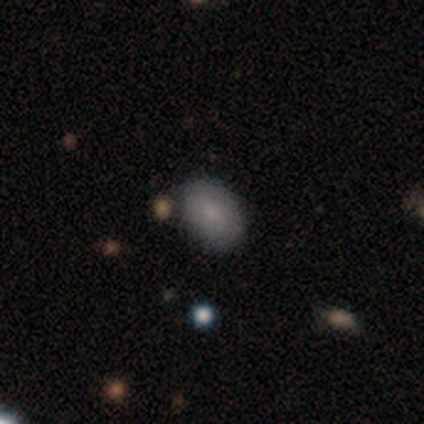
This is clearly a smooth galaxy (100%). How rounded: clearly in between (80%). Merging: clearly none (100%).